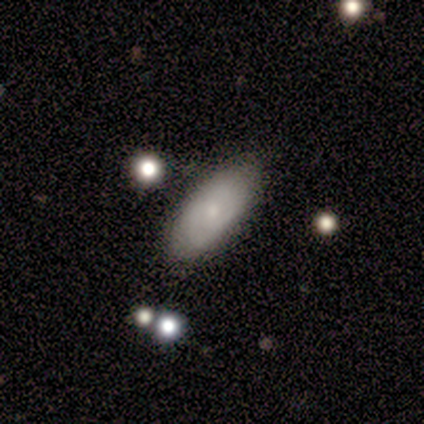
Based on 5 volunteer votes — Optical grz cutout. It shows a smooth galaxy with no disk features (40%, tied with featured or disk) that is in between round and cigar-shaped (50%, tied with cigar-shaped). Merging: none (100%).